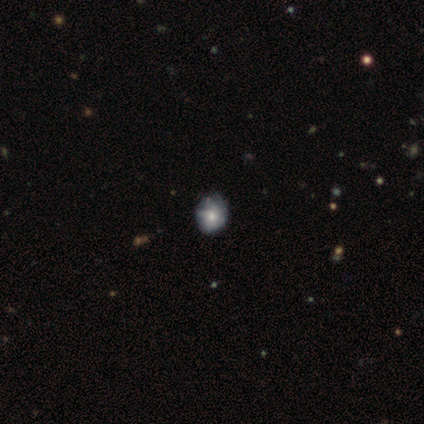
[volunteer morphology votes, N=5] Volunteers were most divided on "merging" (2-way tie): none: 50%, minor disturbance: 50%, major disturbance: 0%, merger: 0%. More confident: how rounded — round (100%); smooth or featured — smooth (60%).